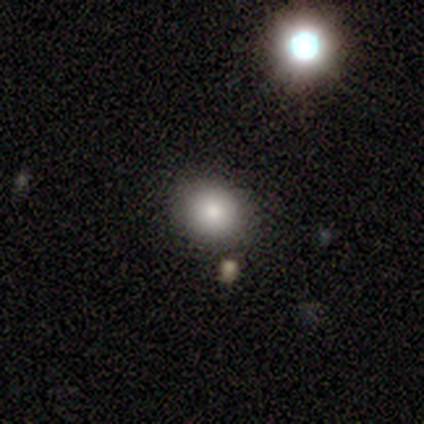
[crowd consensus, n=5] Morphology: type=smooth (80%); roundness=round (75%); merging=none (60%).